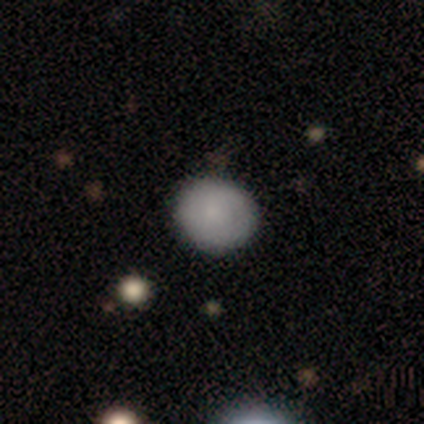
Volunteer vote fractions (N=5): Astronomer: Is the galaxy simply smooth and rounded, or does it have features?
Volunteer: smooth — 100%.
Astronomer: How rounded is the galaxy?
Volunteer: round — 100%.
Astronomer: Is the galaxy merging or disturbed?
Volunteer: none — 100%.